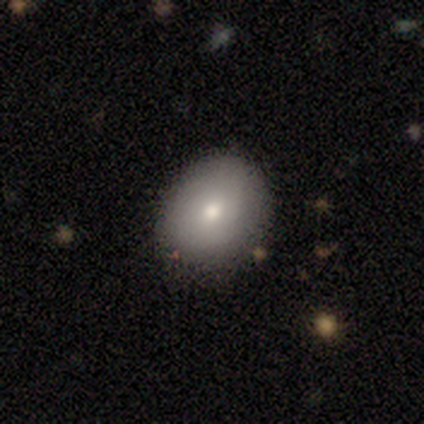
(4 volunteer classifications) smooth-or-featured: smooth: 75% | star or artifact: 25% | featured or disk: 0%
  how-rounded: in between: 67% | round: 33% | cigar-shaped: 0%
  merging: none: 67% | minor disturbance: 33% | major disturbance: 0% | merger: 0%